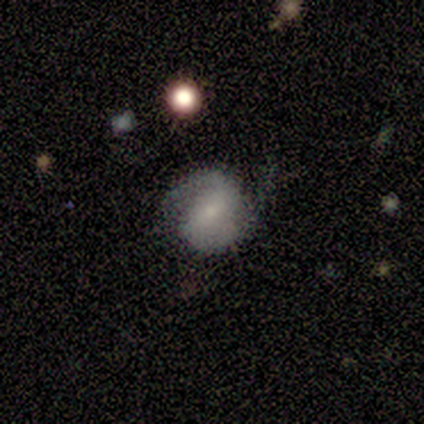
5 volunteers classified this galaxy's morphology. A smooth galaxy with no disk features (40%, tied with featured or disk) that is round (50%, tied with in between). Merging: none (50%).